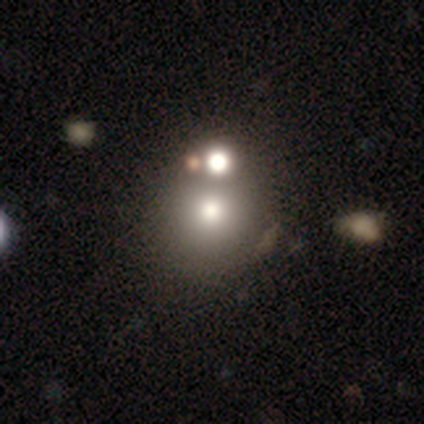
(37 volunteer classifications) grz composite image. It shows a smooth galaxy with no disk features (59%) that is round (95%). Merging: merger (59%).